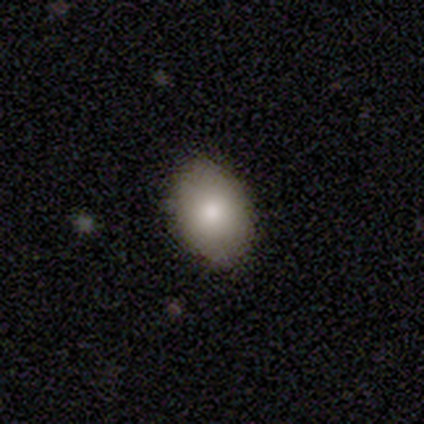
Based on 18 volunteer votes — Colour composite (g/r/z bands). It shows a smooth galaxy with no disk features (89%) that is in between round and cigar-shaped (81%). Merging: none (89%).